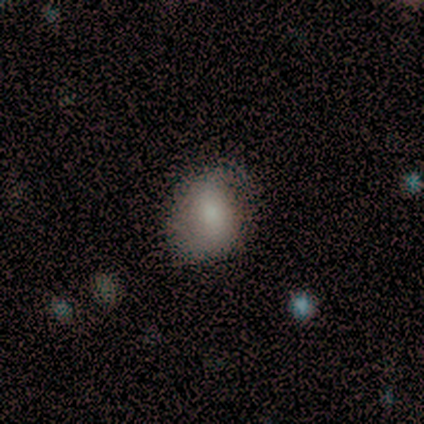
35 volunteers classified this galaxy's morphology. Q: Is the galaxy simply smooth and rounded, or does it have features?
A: smooth — 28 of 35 (80%).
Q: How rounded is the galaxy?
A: round — 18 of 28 (64%).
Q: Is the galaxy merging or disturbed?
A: none — 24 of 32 (75%).